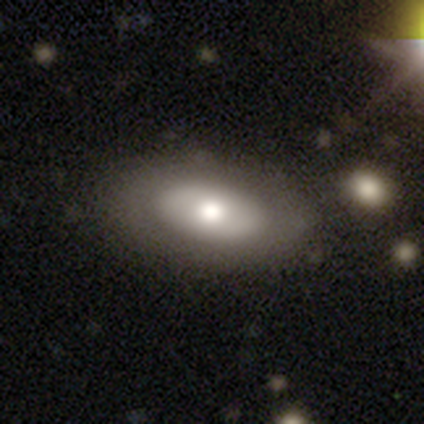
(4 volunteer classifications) smooth 50% (tied), featured or disk 50% (tied), star or artifact 0%. Down the decision tree: how rounded — in between (100%); merging — none (100%).